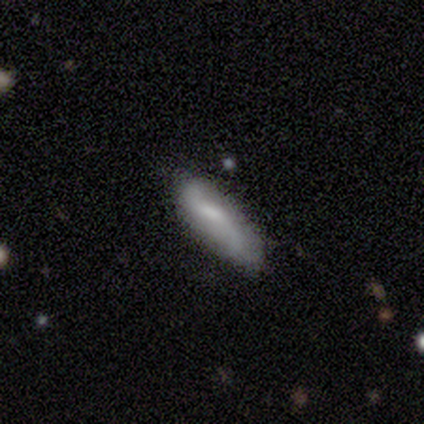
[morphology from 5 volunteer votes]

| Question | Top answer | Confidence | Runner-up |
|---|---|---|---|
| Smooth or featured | featured or disk | 80% | smooth (20%) |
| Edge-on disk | no | 100% | — |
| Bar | weak | 100% | — |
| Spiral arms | yes | 100% | — |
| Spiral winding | loose | 75% | medium (25%) |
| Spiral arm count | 2 | 100% | — |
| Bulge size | small | 50% | moderate (25%) |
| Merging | none | 60% | minor disturbance (20%) |